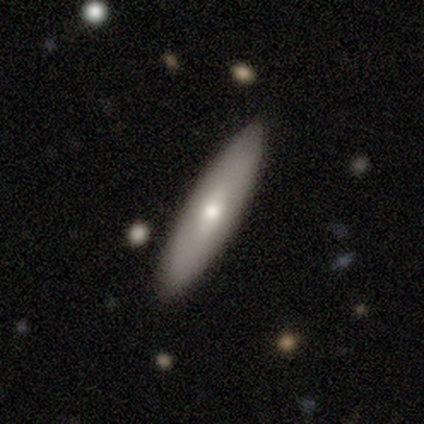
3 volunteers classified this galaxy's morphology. Smooth or featured?
  - smooth: 67% *
  - featured or disk: 33%
  - star or artifact: 0%
How rounded?
  - cigar-shaped: 100% *
  - round: 0%
  - in between: 0%
Merging?
  - none: 67% *
  - minor disturbance: 33%
  - major disturbance: 0%
  - merger: 0%